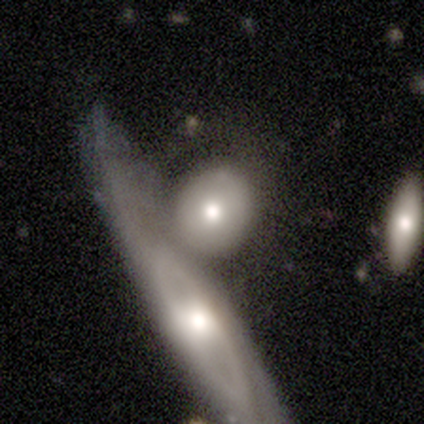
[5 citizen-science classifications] Smooth or featured? smooth (60%)
How rounded? round (100%)
Merging? merger (100%)